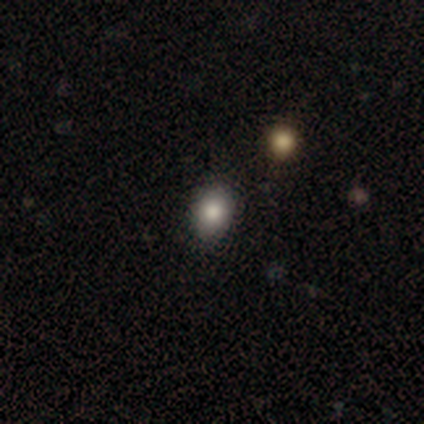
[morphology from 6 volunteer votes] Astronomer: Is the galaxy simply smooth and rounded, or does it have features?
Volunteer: smooth — 100%.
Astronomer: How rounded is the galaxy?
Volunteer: round — 50%, tied with in between at 50%.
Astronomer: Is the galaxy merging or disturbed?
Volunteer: none — 83%.